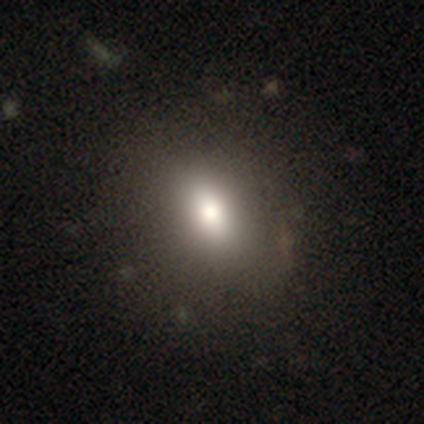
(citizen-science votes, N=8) smooth-or-featured: smooth: 75% | featured or disk: 12% | star or artifact: 12%
  how-rounded: in between: 50% | round: 33% | cigar-shaped: 17%
  merging: none: 86% | minor disturbance: 14% | major disturbance: 0% | merger: 0%